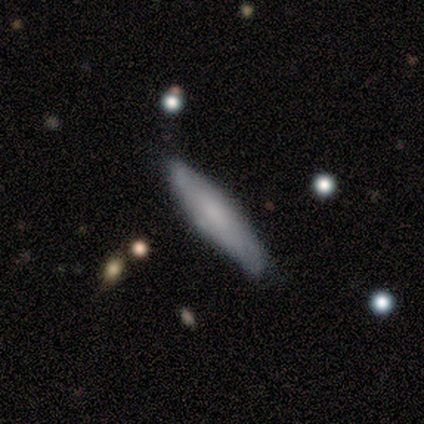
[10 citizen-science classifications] A smooth galaxy with no disk features (70%) that is cigar-shaped (71%). Merging: none (80%).